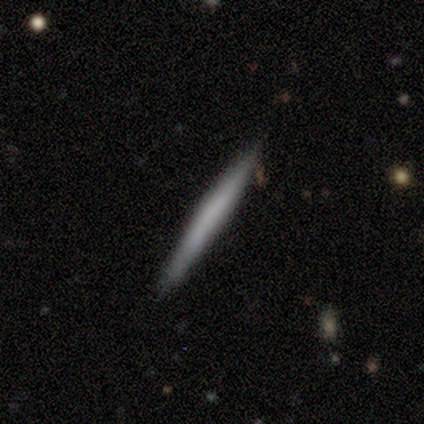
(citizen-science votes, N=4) Q: Smooth or featured?
A: smooth (75%); runner-up: featured or disk (25%)
Q: How rounded?
A: cigar-shaped (67%); runner-up: in between (33%)
Q: Merging?
A: none (75%); runner-up: major disturbance (25%)